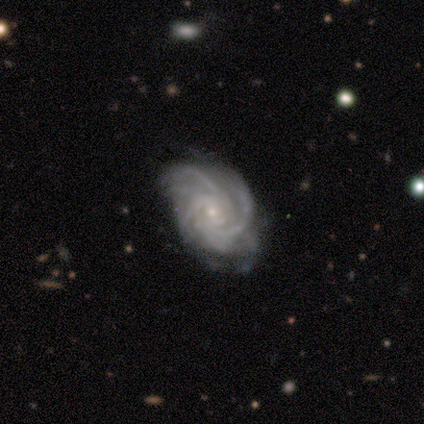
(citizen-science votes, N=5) Smooth or featured? 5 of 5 (100%) said featured or disk. Edge-on disk? 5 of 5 (100%) said no. Bar? 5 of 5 (100%) said no. Spiral arms? 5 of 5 (100%) said yes. Spiral winding? 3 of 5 (60%) said medium. Spiral arm count? 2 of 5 (40%) said can't tell. Bulge size? 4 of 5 (80%) said small. Merging? 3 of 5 (60%) said none.